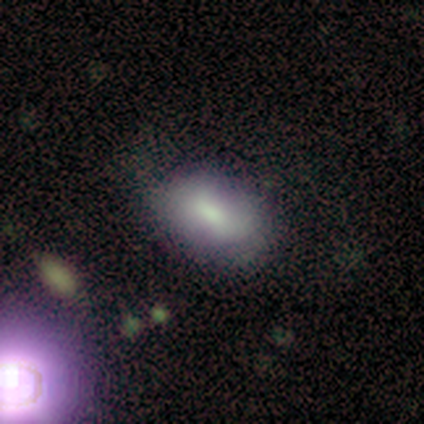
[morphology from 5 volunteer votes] Smooth or featured: smooth — 80% (star or artifact — 20%)
How rounded: in between — 100%
Merging: none — 75% (minor disturbance — 25%)